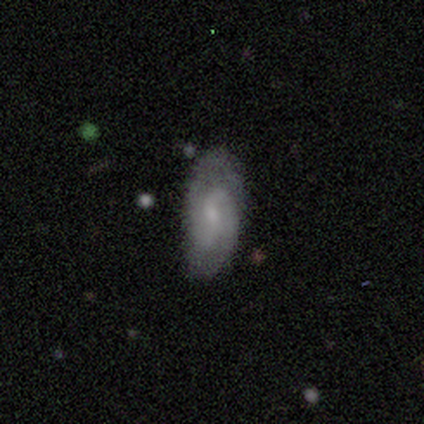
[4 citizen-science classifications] smooth_or_featured: featured or disk (p=1.00)
disk_edge_on: no (p=1.00)
bar: no (p=1.00)
has_spiral_arms: yes (p=0.75) [alt: no p=0.25]
spiral_winding: medium (p=0.67) [alt: tight p=0.33]
spiral_arm_count: 2 (p=0.67) [alt: can't tell p=0.33]
bulge_size: small (p=0.75) [alt: none p=0.25]
merging: none (p=0.50) [tied with: minor disturbance p=0.50]